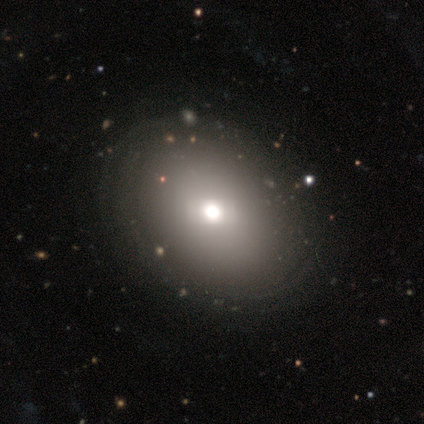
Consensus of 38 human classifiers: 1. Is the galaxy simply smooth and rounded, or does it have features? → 66% smooth, 24% featured or disk, 11% star or artifact.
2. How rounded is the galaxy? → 76% in between, 24% round, 0% cigar-shaped.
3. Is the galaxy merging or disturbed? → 76% none, 6% minor disturbance, 3% merger, 0% major disturbance.